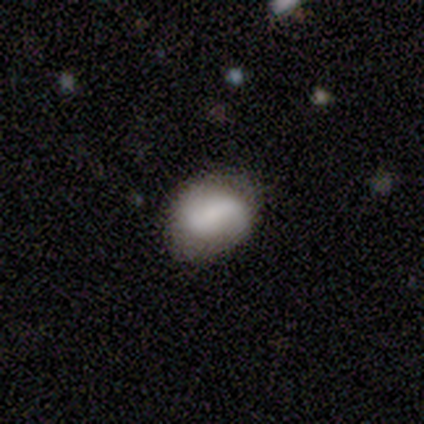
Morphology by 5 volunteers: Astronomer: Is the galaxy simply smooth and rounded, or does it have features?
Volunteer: featured or disk — 80%.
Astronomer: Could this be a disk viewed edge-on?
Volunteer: no — 100%.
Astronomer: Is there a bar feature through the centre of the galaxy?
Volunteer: no — 50%.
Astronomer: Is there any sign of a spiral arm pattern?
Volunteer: yes — 100%.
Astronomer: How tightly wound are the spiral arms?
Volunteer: loose — 50%.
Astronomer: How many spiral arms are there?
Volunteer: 2 — 100%.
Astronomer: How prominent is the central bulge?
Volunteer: large — 25%, tied with moderate, small and none at 25%.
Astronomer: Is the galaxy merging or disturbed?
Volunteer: none — 80%.